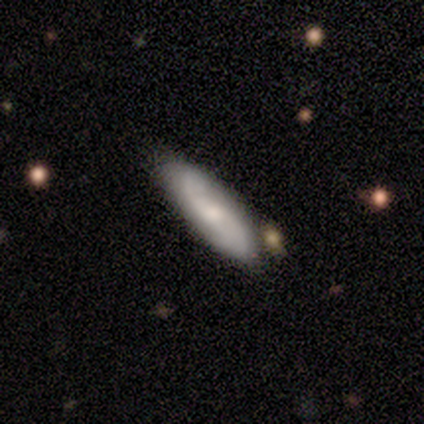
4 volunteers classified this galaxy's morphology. type=smooth (75%); roundness=cigar-shaped (100%); merging=none (100%).